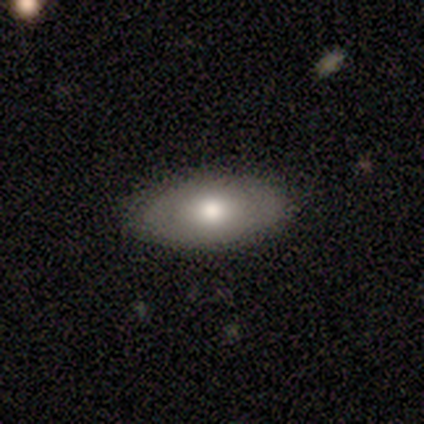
Smooth or featured?
  - featured or disk: 100% *
  - smooth: 0%
  - star or artifact: 0%
Edge-on disk?
  - yes: 50% * (tied)
  - no: 50% * (tied)
Edge-on bulge?
  - rounded: 100% *
  - boxy: 0%
  - none: 0%
Merging?
  - none: 75% *
  - minor disturbance: 25%
  - major disturbance: 0%
  - merger: 0%